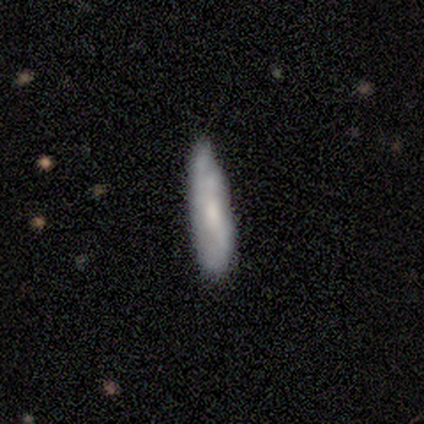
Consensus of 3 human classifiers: This appears to be a smooth galaxy with no disk features (67%) that is cigar-shaped (100%). Merging: none (50%, tied with minor disturbance).